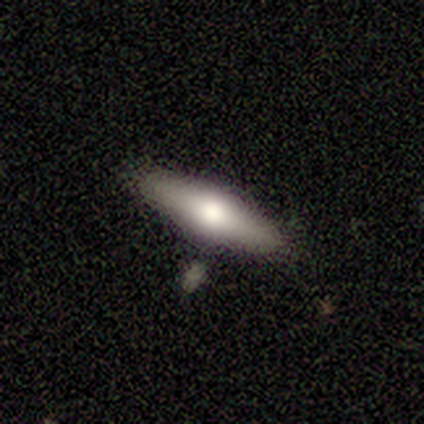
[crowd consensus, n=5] A smooth galaxy with no disk features (60%) that is in between round and cigar-shaped (100%).

Vote fractions:
- Smooth or featured? smooth: 60% / featured or disk: 40% / star or artifact: 0%
- How rounded? in between: 100% / round: 0% / cigar-shaped: 0%
- Merging? none: 80% / minor disturbance: 20% / major disturbance: 0% / merger: 0%